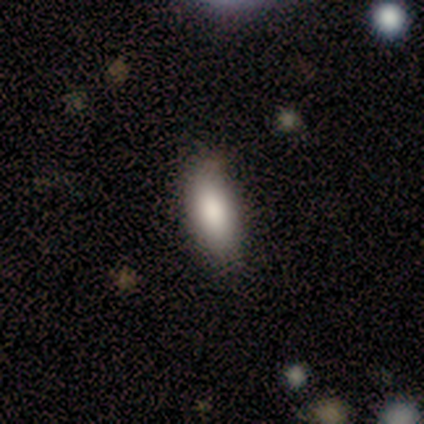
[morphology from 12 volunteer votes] This is clearly a smooth galaxy (83%). How rounded: clearly in between (90%). Merging: clearly none (91%).